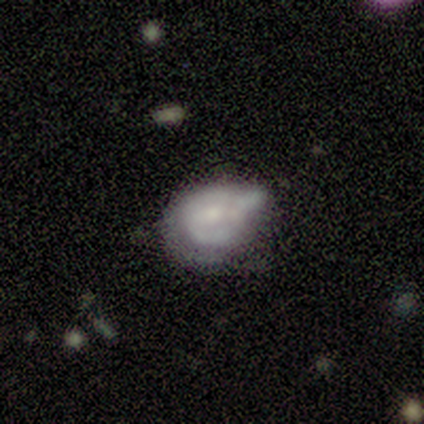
This is likely a featured or disk galaxy (71%). It is clearly not viewed edge-on (100%). Bar: clearly no (100%). Spiral arm pattern: clearly no (80%). Central bulge: marginally moderate (40%, tied with none). Merging: likely minor disturbance (71%).